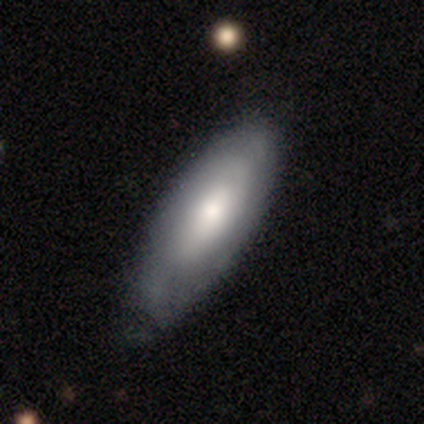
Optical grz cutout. It shows a smooth galaxy with no disk features (67%) that is in between round and cigar-shaped (66%). Merging: none (67%).